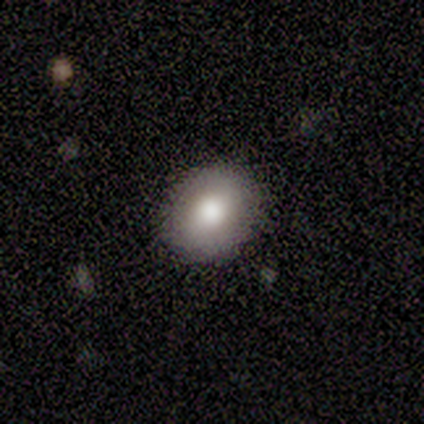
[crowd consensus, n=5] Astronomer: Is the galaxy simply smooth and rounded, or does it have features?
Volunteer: smooth — 100%.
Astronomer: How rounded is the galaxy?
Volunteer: round — 80%.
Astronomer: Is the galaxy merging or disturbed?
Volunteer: none — 60%.